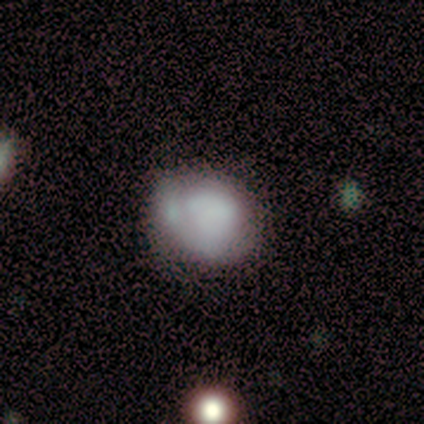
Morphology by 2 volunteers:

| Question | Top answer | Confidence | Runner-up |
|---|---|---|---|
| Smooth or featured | smooth | 100% | — |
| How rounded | round | 50% | tied: in between (50%) |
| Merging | minor disturbance | 100% | — |